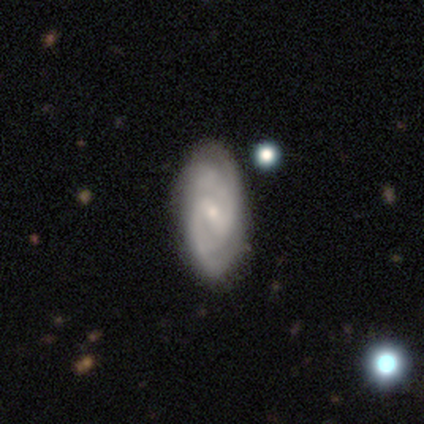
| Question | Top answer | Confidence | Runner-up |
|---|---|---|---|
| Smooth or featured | featured or disk | 100% | — |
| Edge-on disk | no | 100% | — |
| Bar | weak | 67% | no (33%) |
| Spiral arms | yes | 100% | — |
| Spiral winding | medium | 100% | — |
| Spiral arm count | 2 | 100% | — |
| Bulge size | small | 100% | — |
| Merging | none | 100% | — |